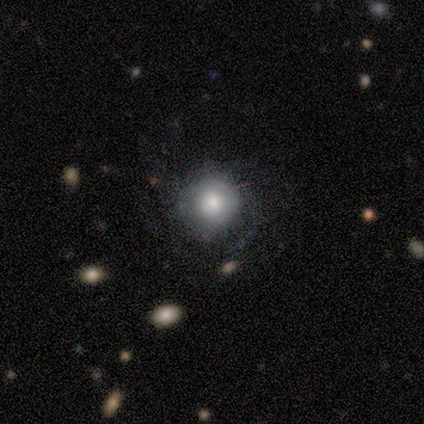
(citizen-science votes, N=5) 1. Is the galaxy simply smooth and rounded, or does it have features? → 60% smooth, 40% star or artifact, 0% featured or disk.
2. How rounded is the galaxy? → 100% round, 0% in between, 0% cigar-shaped.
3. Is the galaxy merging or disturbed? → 67% none, 33% minor disturbance, 0% major disturbance, 0% merger.